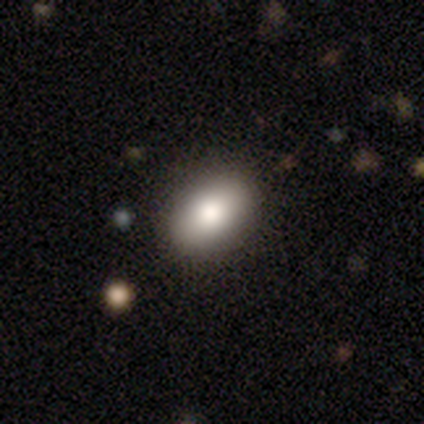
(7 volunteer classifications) This appears to be a smooth galaxy with no disk features (71%) that is in between round and cigar-shaped (100%). Merging: none (83%).